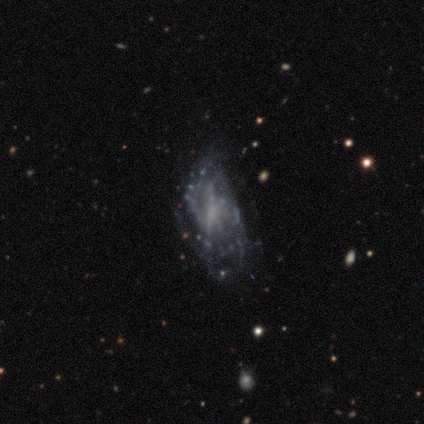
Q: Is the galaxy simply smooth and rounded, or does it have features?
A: featured or disk — 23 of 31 (74%).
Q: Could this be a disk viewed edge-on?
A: no — 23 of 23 (100%).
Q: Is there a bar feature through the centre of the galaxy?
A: no — 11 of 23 (48%).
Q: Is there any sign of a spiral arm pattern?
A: yes — 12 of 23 (52%).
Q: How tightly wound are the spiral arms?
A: medium — 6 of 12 (50%).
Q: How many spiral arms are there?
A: can't tell — 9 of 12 (75%).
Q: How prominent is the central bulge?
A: none — 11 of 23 (48%).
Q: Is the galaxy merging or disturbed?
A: none — 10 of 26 (38%).